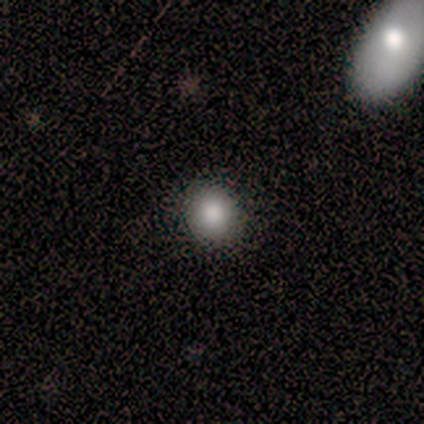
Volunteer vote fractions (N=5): Overall: smooth (80%). How rounded: round (100%). Merging: none (100%).